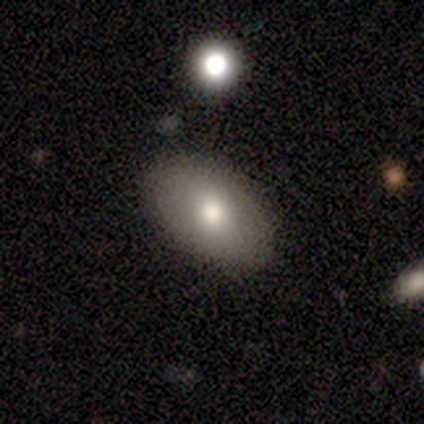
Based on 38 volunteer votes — smooth 76%, featured or disk 21%, star or artifact 3%. Down the decision tree: how rounded — in between (86%); merging — none (86%).